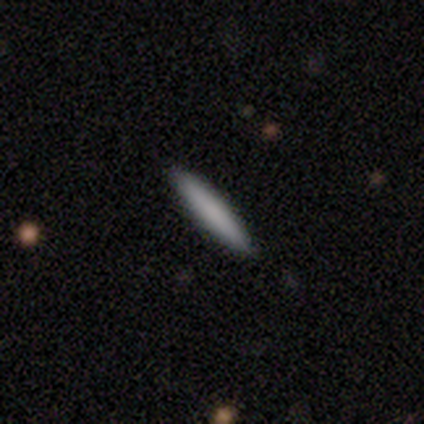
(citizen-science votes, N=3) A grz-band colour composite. It shows a smooth galaxy with no disk features (67%) that is cigar-shaped (100%). Merging: none (100%).